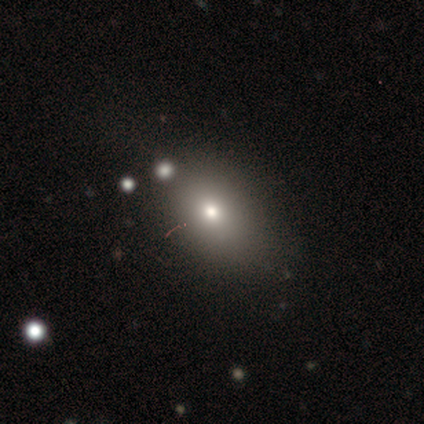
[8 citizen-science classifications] Q: Smooth or featured?
A: smooth (50%); runner-up: featured or disk (38%)
Q: How rounded?
A: round (50%); tied with: in between (50%)
Q: Merging?
A: none (71%); runner-up: minor disturbance (29%)